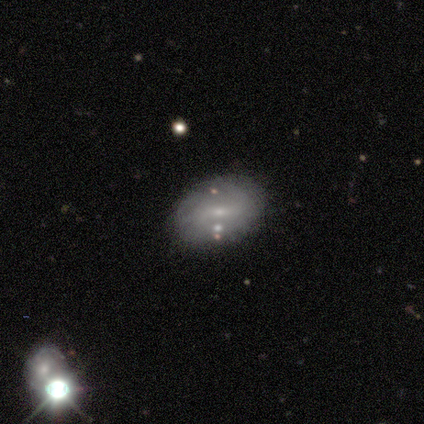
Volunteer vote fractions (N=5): Smooth or featured: featured or disk — 80% (smooth — 20%)
Edge-on disk: no — 100%
Bar: no — 75% (strong — 25%)
Spiral arms: no — 75% (yes — 25%)
Bulge size: small — 75% (none — 25%)
Merging: none — 100%